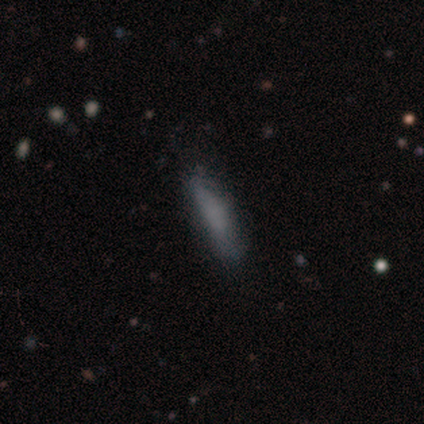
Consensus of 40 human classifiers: Q: Smooth or featured?
A: smooth (80%); runner-up: featured or disk (10%)
Q: How rounded?
A: cigar-shaped (78%); runner-up: in between (22%)
Q: Merging?
A: none (69%); runner-up: minor disturbance (22%)